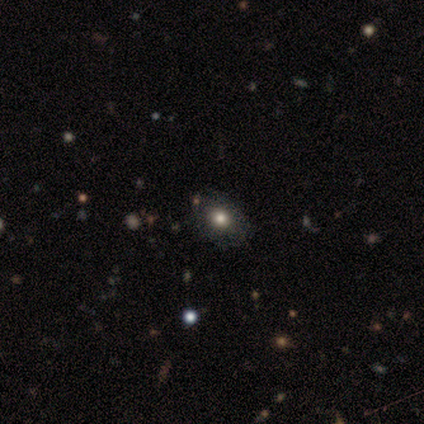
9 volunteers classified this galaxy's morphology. Overall: smooth (67%). How rounded: in between (67%; round 33%). Merging: none (86%).